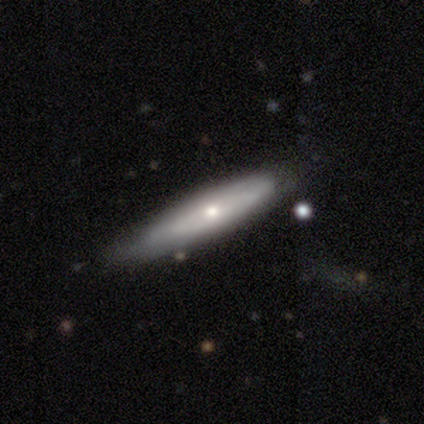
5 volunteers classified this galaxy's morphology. Smooth or featured?
  - smooth: 60% *
  - featured or disk: 40%
  - star or artifact: 0%
How rounded?
  - cigar-shaped: 100% *
  - round: 0%
  - in between: 0%
Merging?
  - none: 80% *
  - minor disturbance: 20%
  - major disturbance: 0%
  - merger: 0%